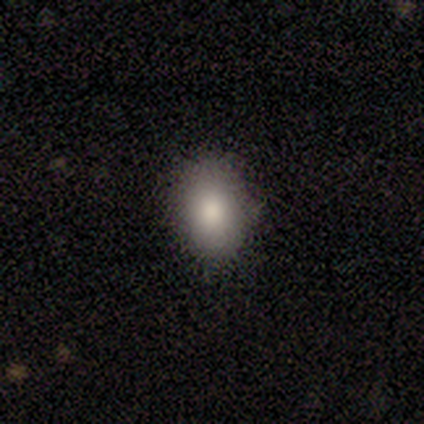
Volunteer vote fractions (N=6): smooth-or-featured: smooth: 67% | featured or disk: 33% | star or artifact: 0%
  how-rounded: in between: 100% | round: 0% | cigar-shaped: 0%
  merging: none: 100% | minor disturbance: 0% | major disturbance: 0% | merger: 0%